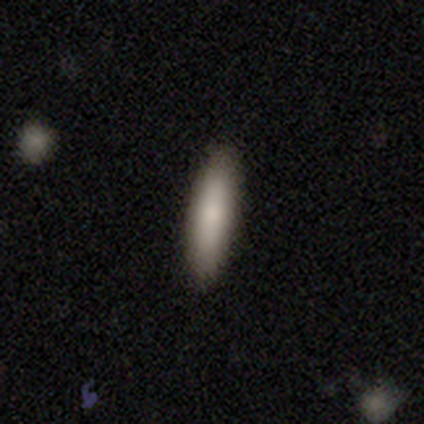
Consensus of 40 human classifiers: This is clearly a smooth galaxy (88%). How rounded: likely cigar-shaped (74%). Merging: clearly none (87%).